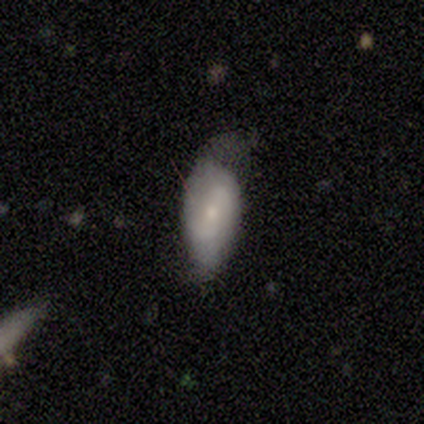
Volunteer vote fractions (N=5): smooth_or_featured: smooth (p=0.40) [tied with: featured or disk p=0.40]
how_rounded: in between (p=1.00)
merging: minor disturbance (p=0.50) [alt: none p=0.25]